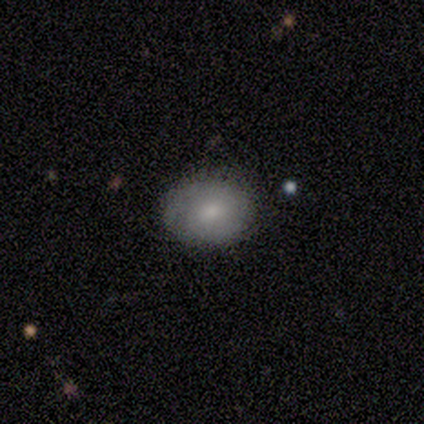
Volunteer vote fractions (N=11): Volunteers were most divided on "how rounded": in between: 57%, round: 43%, cigar-shaped: 0%. More confident: merging — none (90%); smooth or featured — smooth (64%).